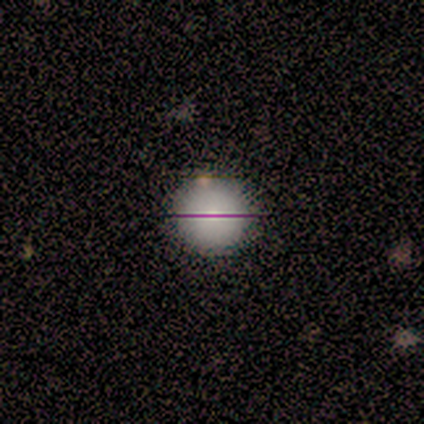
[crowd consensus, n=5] Volunteers were most divided on "smooth or featured": smooth: 60%, star or artifact: 40%, featured or disk: 0%. More confident: how rounded — round (100%); merging — none (67%).